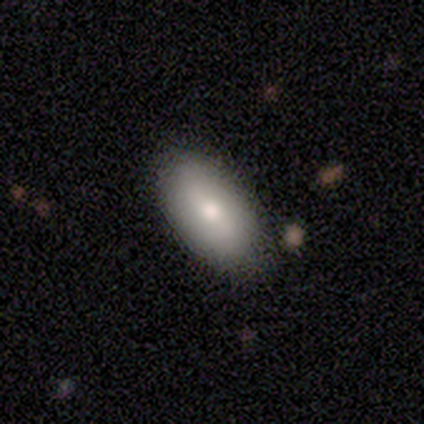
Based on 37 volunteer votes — This is likely a smooth galaxy (62%). How rounded: clearly in between (96%). Merging: clearly none (82%).